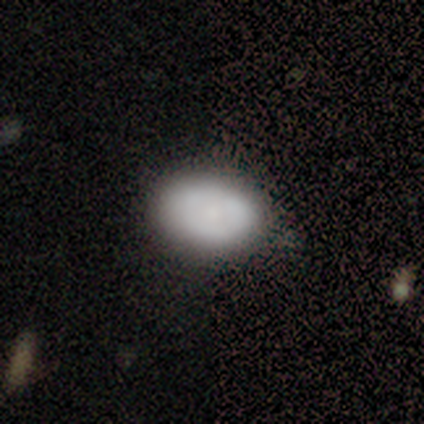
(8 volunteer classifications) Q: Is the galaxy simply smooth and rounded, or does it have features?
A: smooth — 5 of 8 (62%).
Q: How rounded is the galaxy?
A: in between — 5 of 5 (100%).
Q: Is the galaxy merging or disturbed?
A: none — 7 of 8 (88%).